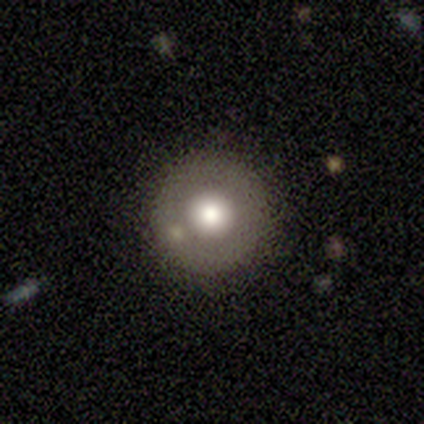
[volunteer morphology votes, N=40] Smooth or featured? 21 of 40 (52%) said smooth. How rounded? 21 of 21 (100%) said round. Merging? 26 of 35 (74%) said none.